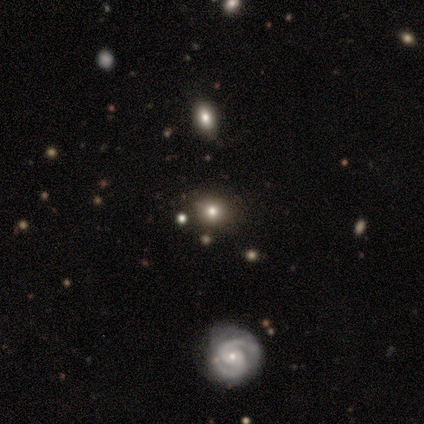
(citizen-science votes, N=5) Volunteers were most divided on "merging": none: 80%, minor disturbance: 20%, major disturbance: 0%, merger: 0%. More confident: smooth or featured — smooth (100%); how rounded — round (100%).